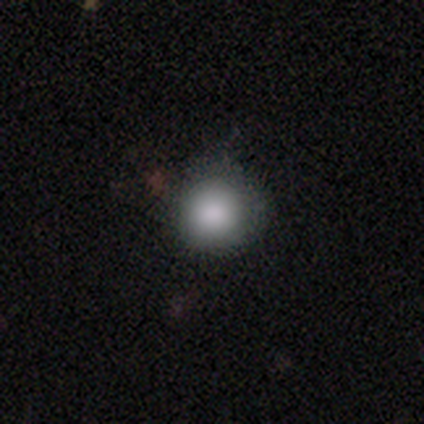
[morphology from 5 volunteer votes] Smooth or featured: smooth — 100%
How rounded: round — 100%
Merging: none — 80% (minor disturbance — 20%)